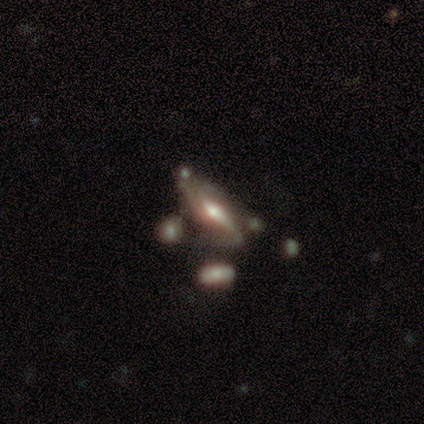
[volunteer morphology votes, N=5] A featured or disk galaxy (60%) with a weak bar (67%), 2 (67%) loose (67%) spiral arms (100%) and a moderate central bulge (67%).

Vote fractions:
- Smooth or featured? featured or disk: 60% / smooth: 40% / star or artifact: 0%
- Edge-on disk? no: 100% / yes: 0%
- Bar? weak: 67% / strong: 33% / no: 0%
- Spiral arms? yes: 100% / no: 0%
- Spiral winding? loose: 67% / tight: 33% / medium: 0%
- Spiral arm count? 2: 67% / can't tell: 33% / 1: 0% / 3: 0% / 4: 0% / more than 4: 0%
- Bulge size? moderate: 67% / small: 33% / dominant: 0% / large: 0% / none: 0%
- Merging? none: 60% / minor disturbance: 40% / major disturbance: 0% / merger: 0%